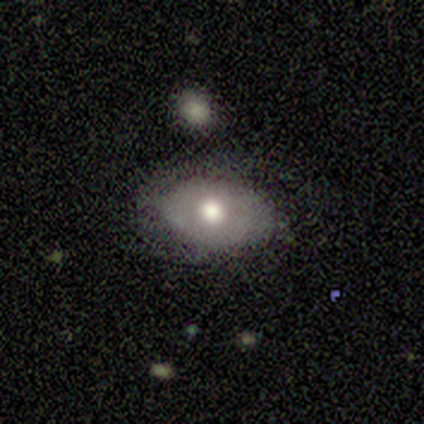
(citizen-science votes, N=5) A smooth galaxy with no disk features (80%) that is in between round and cigar-shaped (75%). Merging: none (80%).